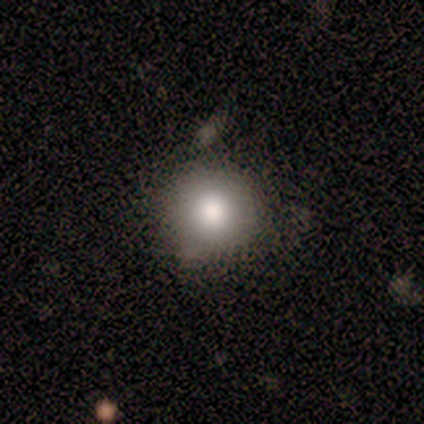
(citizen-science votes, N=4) smooth 100%, featured or disk 0%, star or artifact 0%. Down the decision tree: how rounded — round (75%); merging — none (75%).